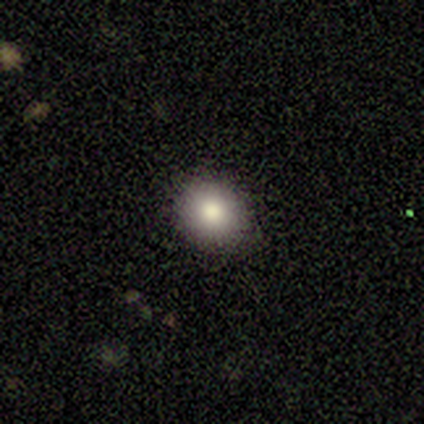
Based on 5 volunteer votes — Smooth or featured? smooth (100%)
How rounded? round (100%)
Merging? none (100%)